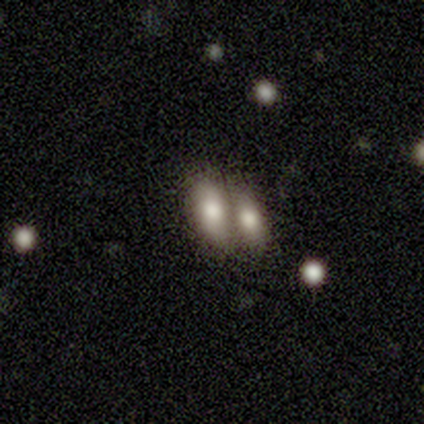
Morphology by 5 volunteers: Smooth or featured? 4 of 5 (80%) said smooth. How rounded? 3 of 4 (75%) said in between. Merging? 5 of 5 (100%) said merger.